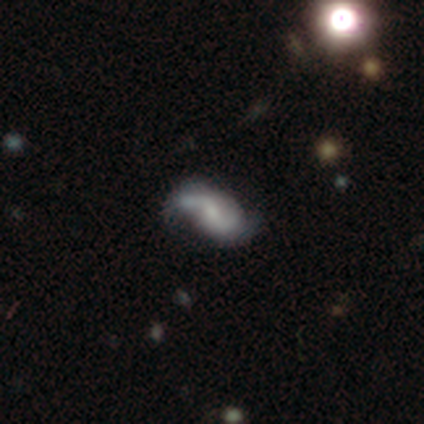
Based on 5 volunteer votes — smooth_or_featured: featured or disk (p=1.00)
disk_edge_on: no (p=1.00)
bar: weak (p=0.60) [alt: strong p=0.20]
has_spiral_arms: yes (p=0.80) [alt: no p=0.20]
spiral_winding: loose (p=0.75) [alt: tight p=0.25]
spiral_arm_count: 2 (p=1.00)
bulge_size: none (p=0.40) [alt: large p=0.20]
merging: none (p=0.60) [alt: minor disturbance p=0.20]